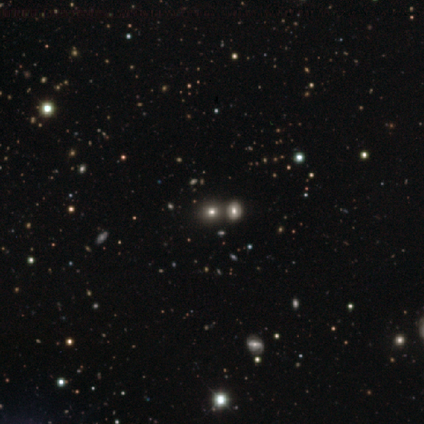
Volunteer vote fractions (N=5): This appears to be a star or artifact, not a galaxy (60%).